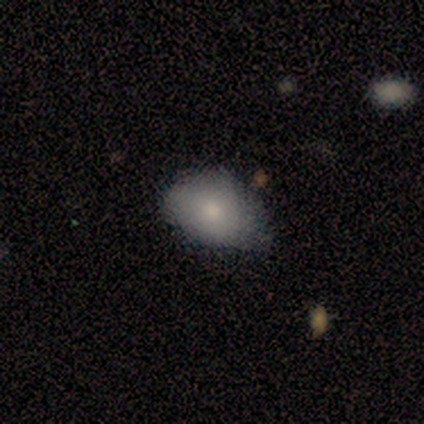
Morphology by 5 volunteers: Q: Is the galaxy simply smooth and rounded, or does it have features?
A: smooth — 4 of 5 (80%).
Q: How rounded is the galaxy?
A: in between — 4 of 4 (100%).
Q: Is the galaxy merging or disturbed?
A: none — 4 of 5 (80%).